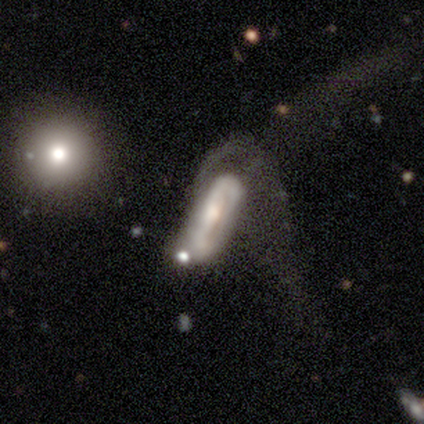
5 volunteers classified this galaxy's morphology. This appears to be a smooth galaxy with no disk features (60%) that is in between round and cigar-shaped (67%). Merging: major disturbance (80%).